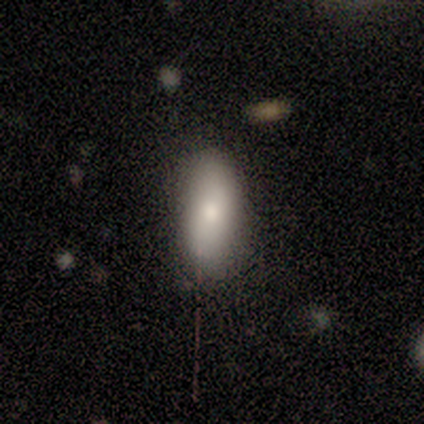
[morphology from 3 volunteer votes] Smooth or featured? 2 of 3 (67%) said smooth. How rounded? 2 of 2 (100%) said in between. Merging? 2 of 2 (100%) said none.